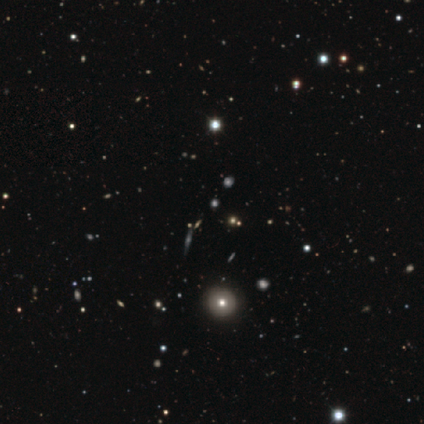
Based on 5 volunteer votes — smooth_or_featured: featured or disk (p=0.40) [tied with: star or artifact p=0.40]
disk_edge_on: yes (p=0.50) [tied with: no p=0.50]
edge_on_bulge: none (p=1.00)
merging: none (p=1.00)